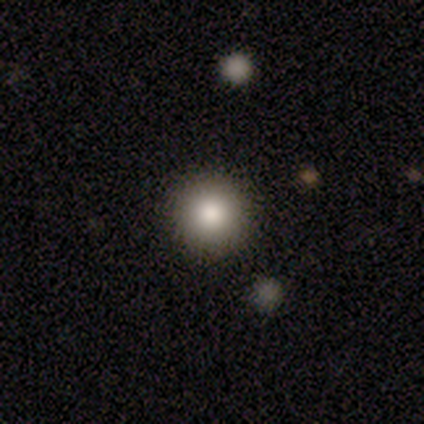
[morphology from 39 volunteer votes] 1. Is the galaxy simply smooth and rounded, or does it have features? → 79% smooth, 13% star or artifact, 8% featured or disk.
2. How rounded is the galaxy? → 90% round, 10% in between, 0% cigar-shaped.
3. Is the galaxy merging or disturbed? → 91% none, 6% minor disturbance, 3% major disturbance, 0% merger.